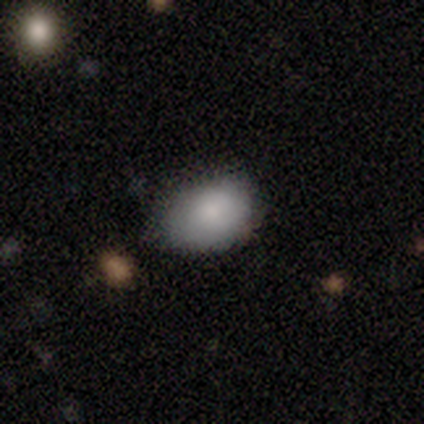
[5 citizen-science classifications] smooth-or-featured: smooth: 100% | featured or disk: 0% | star or artifact: 0%
  how-rounded: in between: 100% | round: 0% | cigar-shaped: 0%
  merging: minor disturbance: 60% | none: 40% | major disturbance: 0% | merger: 0%